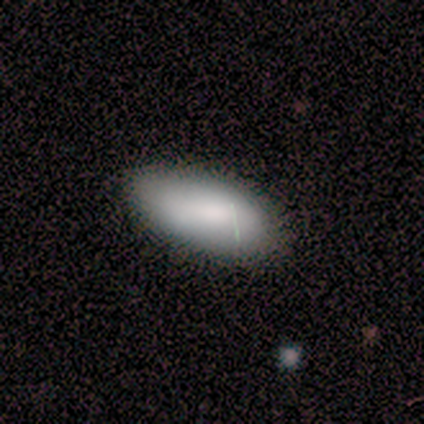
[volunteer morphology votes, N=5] smooth 100%, featured or disk 0%, star or artifact 0%. Down the decision tree: how rounded — in between (100%); merging — none (100%).